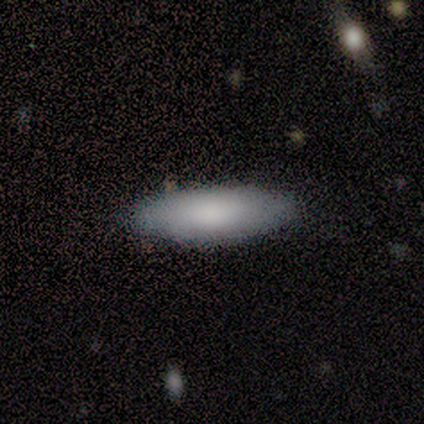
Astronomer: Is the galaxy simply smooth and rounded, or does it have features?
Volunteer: smooth — 80%.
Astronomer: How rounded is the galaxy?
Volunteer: in between — 50%, tied with cigar-shaped at 50%.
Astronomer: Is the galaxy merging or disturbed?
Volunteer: none — 75%.